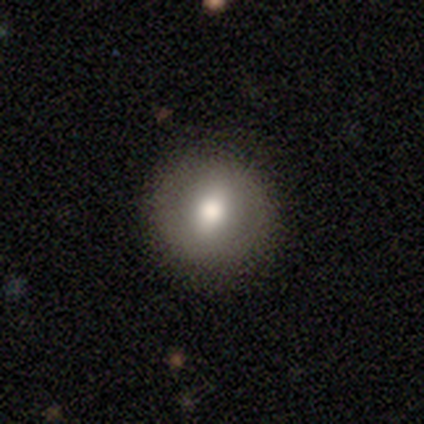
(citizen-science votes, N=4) smooth 100%, featured or disk 0%, star or artifact 0%. Down the decision tree: how rounded — round (75%); merging — none (100%).